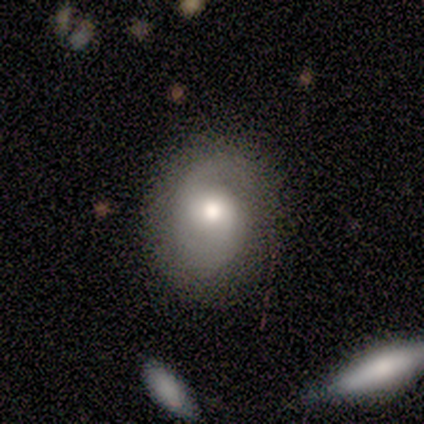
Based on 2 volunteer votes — smooth-or-featured: featured or disk: 100% | smooth: 0% | star or artifact: 0%
  disk-edge-on: no: 100% | yes: 0%
    bar: weak: 50% (tied) | no: 50% (tied) | strong: 0%
    has-spiral-arms: yes: 100% | no: 0%
      spiral-winding: medium: 50% (tied) | loose: 50% (tied) | tight: 0%
      spiral-arm-count: 1: 50% (tied) | 2: 50% (tied) | 3: 0% | 4: 0% | more than 4: 0% | can't tell: 0%
    bulge-size: moderate: 100% | dominant: 0% | large: 0% | small: 0% | none: 0%
  merging: none: 100% | minor disturbance: 0% | major disturbance: 0% | merger: 0%